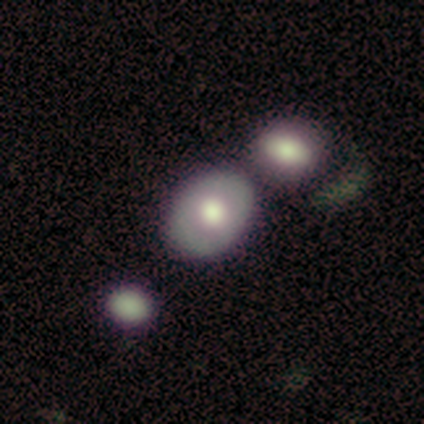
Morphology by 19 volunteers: This appears to be a smooth galaxy with no disk features (47%, tied with featured or disk) that is in between round and cigar-shaped (89%). Merging: none (56%).